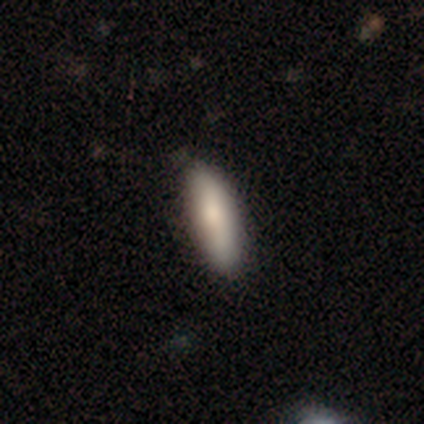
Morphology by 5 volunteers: smooth_or_featured: smooth (p=0.60) [alt: featured or disk p=0.20]
how_rounded: in between (p=1.00)
merging: none (p=0.75) [alt: minor disturbance p=0.25]